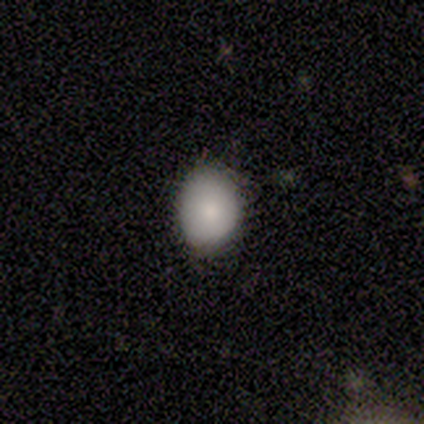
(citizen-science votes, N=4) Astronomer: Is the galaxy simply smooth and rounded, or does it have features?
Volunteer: smooth — 100%.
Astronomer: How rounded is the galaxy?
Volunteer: round — 75%.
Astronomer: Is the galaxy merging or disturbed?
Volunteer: none — 75%.